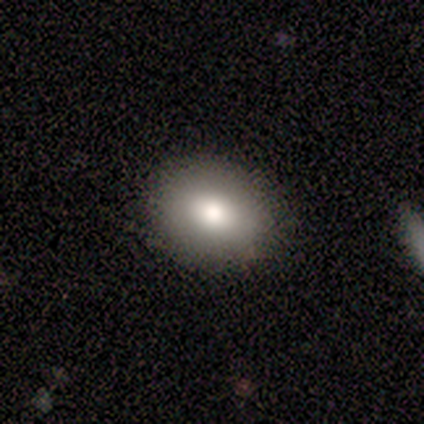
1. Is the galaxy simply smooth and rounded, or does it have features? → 75% smooth, 25% featured or disk, 0% star or artifact.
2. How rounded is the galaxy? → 67% round, 33% in between, 0% cigar-shaped.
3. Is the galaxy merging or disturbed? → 75% none, 25% major disturbance, 0% minor disturbance, 0% merger.